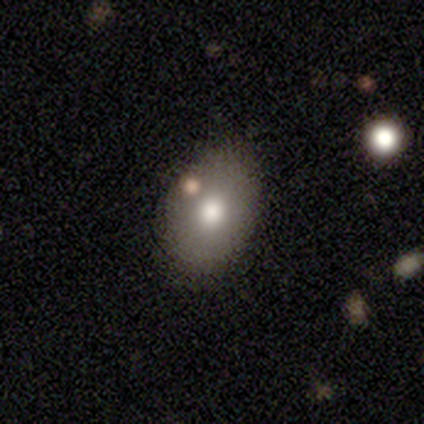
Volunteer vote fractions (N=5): This is likely a smooth galaxy (60%). How rounded: clearly in between (100%). Merging: marginally none (40%).